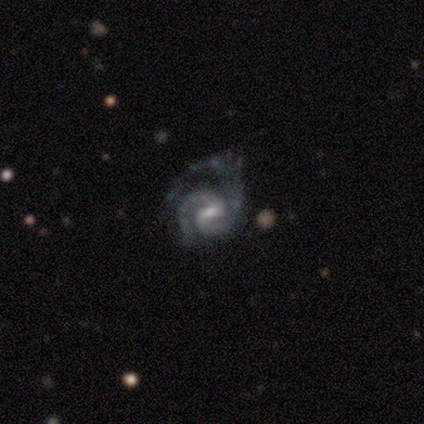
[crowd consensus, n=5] Morphology: type=featured or disk (80%); edge-on=no (100%); bar=weak (75%); spiral arms=yes (100%); winding=loose (50%); arm count=2 (75%); bulge=small (75%); merging=none (100%).